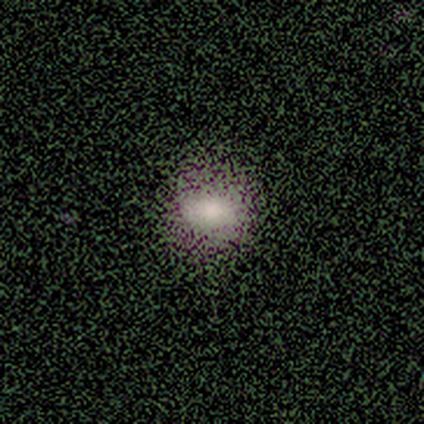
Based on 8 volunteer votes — A smooth galaxy with no disk features (50%, tied with star or artifact) that is in between round and cigar-shaped (75%). Merging: none (75%).